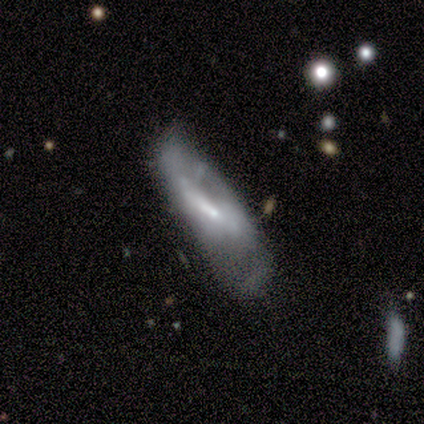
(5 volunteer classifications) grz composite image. It shows a featured or disk galaxy (80%) viewed edge-on (50%, tied with no) with no central bulge (100%). Merging: none (40%, tied with major disturbance).